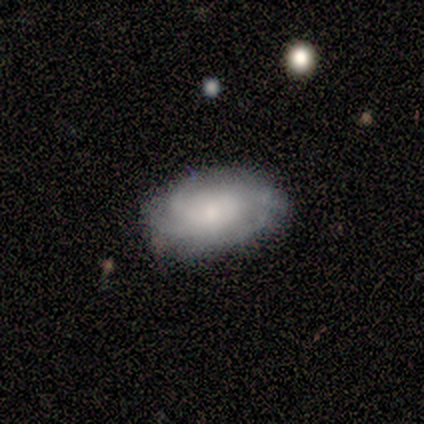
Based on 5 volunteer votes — This is likely a smooth galaxy (60%). How rounded: clearly in between (100%). Merging: clearly none (80%).